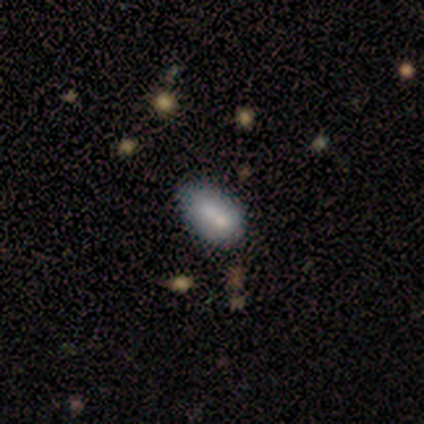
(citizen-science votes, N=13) Volunteers were most divided on "merging": none: 73%, minor disturbance: 18%, merger: 9%, major disturbance: 0%. More confident: how rounded — in between (100%); smooth or featured — smooth (77%).